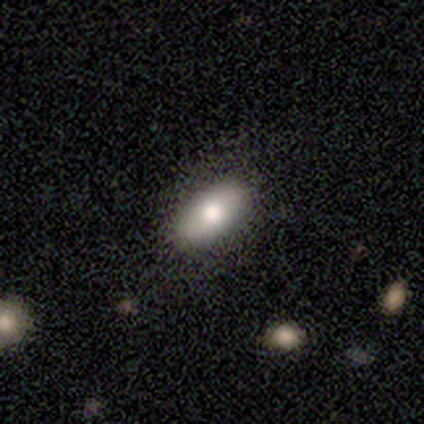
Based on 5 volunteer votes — This is likely a smooth galaxy (60%). How rounded: likely in between (67%). Merging: clearly none (100%).